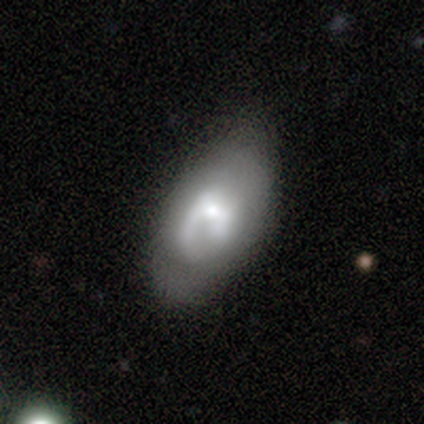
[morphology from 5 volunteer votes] A featured or disk galaxy (60%) with no bar (67%), 2 (100%) tight (50%, tied with medium) spiral arms (67%) and a small central bulge (67%). Merging: none (50%, tied with minor disturbance).